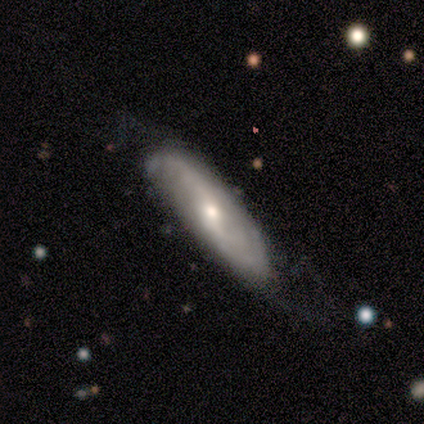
featured or disk 89%, smooth 11%, star or artifact 0%. Down the decision tree: edge-on disk — no (88%); bar — no (43%); spiral arms — yes (86%); spiral arm count — 2 (83%); spiral winding — medium (50%); bulge size — moderate (43%, tied with small); merging — none (78%).